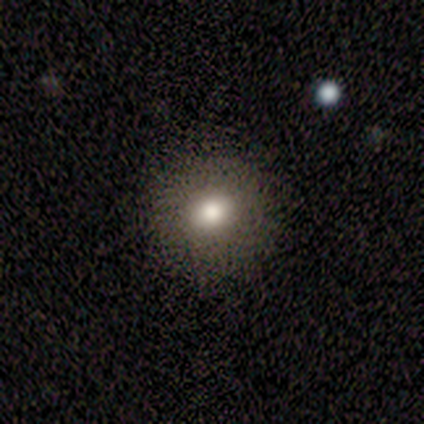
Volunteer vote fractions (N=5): smooth 60%, featured or disk 40%, star or artifact 0%. Down the decision tree: how rounded — in between (67%); merging — none (100%).